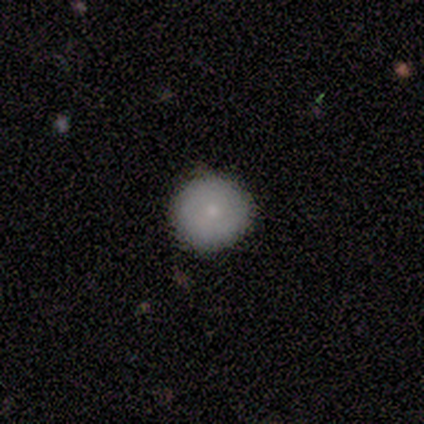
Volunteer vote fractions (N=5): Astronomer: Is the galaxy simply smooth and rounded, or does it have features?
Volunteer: smooth — 80%.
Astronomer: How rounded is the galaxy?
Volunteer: round — 100%.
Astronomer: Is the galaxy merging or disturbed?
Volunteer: none — 80%.